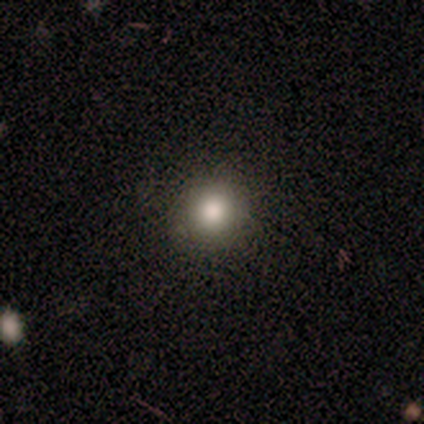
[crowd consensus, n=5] A smooth galaxy with no disk features (40%, tied with featured or disk) that is round (100%). Merging: none (100%).